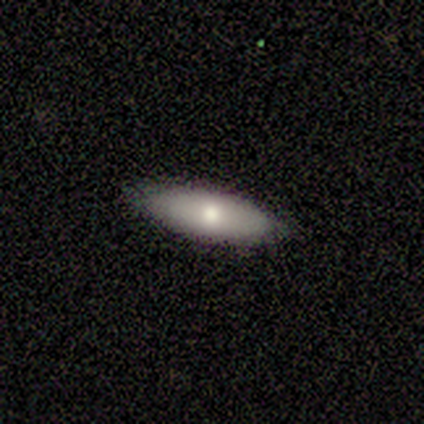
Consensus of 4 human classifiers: Smooth or featured? smooth (75%)
How rounded? in between (67%)
Merging? none (100%)